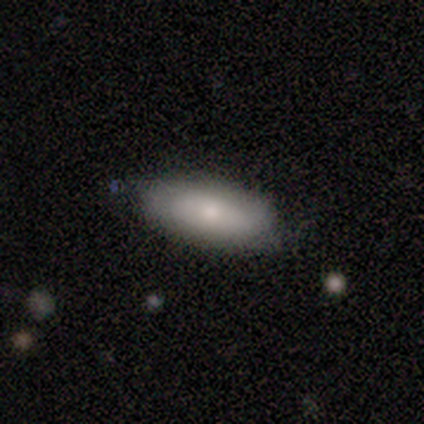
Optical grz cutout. It shows a smooth galaxy with no disk features (67%) that is in between round and cigar-shaped (100%). Merging: none (56%).